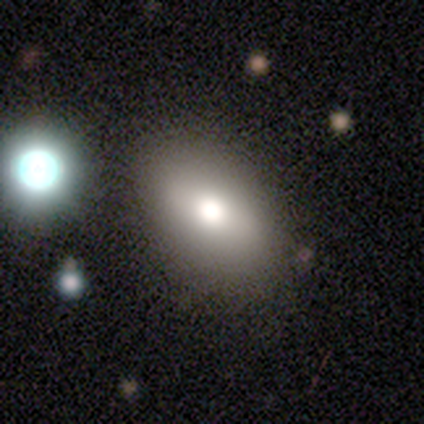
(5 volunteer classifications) A smooth galaxy with no disk features (80%) that is round (50%, tied with in between). Merging: none (75%).